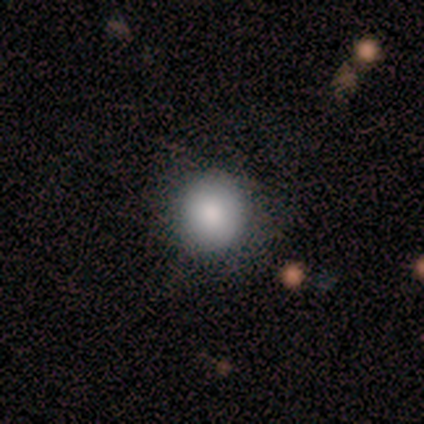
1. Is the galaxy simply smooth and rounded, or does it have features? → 80% smooth, 20% featured or disk, 0% star or artifact.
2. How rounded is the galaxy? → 75% round, 25% in between, 0% cigar-shaped.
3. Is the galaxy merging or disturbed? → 60% none, 40% major disturbance, 0% minor disturbance, 0% merger.